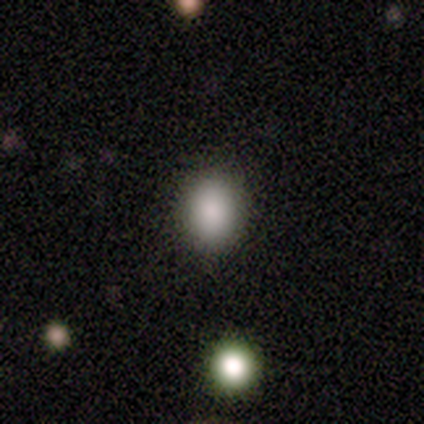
This is clearly a smooth galaxy (100%). How rounded: possibly round (50%, tied with in between). Merging: clearly none (100%).